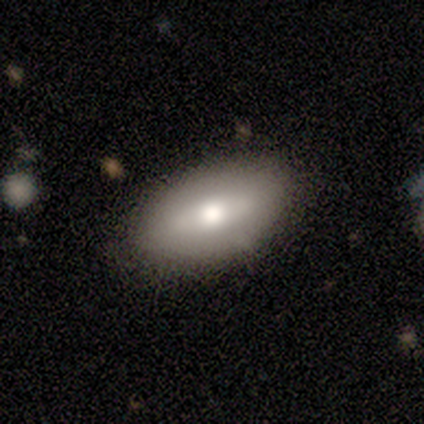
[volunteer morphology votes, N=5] Consensus on every question: smooth or featured — smooth (100%); how rounded — in between (100%); merging — none (100%).